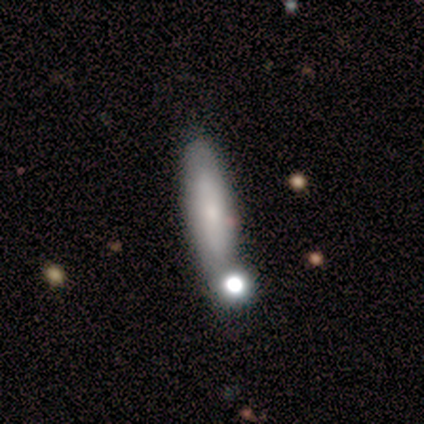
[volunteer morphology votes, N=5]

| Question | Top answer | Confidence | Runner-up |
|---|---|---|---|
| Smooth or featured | smooth | 100% | — |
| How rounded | cigar-shaped | 60% | in between (40%) |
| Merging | none | 80% | merger (20%) |